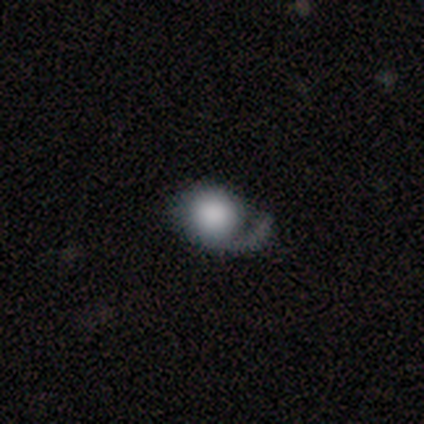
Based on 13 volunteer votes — This appears to be a smooth galaxy with no disk features (62%) that is round (75%). Merging: none (42%).